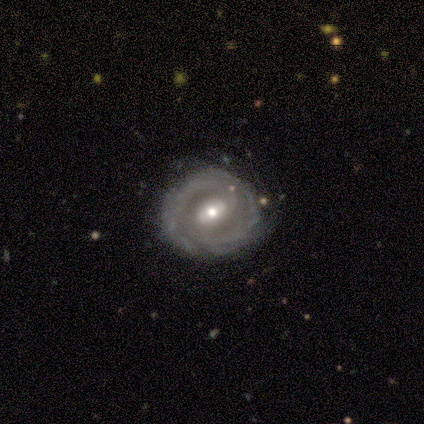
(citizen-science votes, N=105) smooth_or_featured: featured or disk (p=0.85) [alt: smooth p=0.11]
disk_edge_on: no (p=0.98) [alt: yes p=0.02]
bar: weak (p=0.45) [alt: strong p=0.33]
has_spiral_arms: yes (p=0.89) [alt: no p=0.11]
spiral_winding: tight (p=0.60) [alt: medium p=0.30]
spiral_arm_count: 2 (p=0.58) [alt: can't tell p=0.27]
bulge_size: moderate (p=0.63) [alt: small p=0.28]
merging: none (p=0.75) [alt: minor disturbance p=0.18]